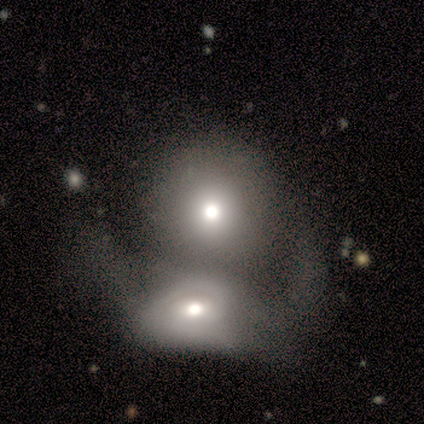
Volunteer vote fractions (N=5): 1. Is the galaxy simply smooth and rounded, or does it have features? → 80% smooth, 20% featured or disk, 0% star or artifact.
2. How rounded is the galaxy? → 50% round (tied), 50% in between (tied), 0% cigar-shaped.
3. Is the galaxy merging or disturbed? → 60% merger, 20% none, 20% major disturbance, 0% minor disturbance.